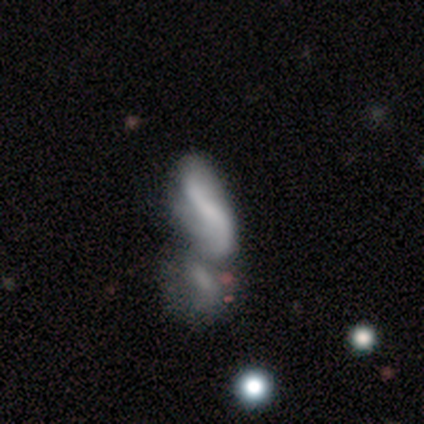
Smooth or featured? 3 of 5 (60%) said featured or disk. Edge-on disk? 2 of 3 (67%) said no. Bar? 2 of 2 (100%) said strong. Spiral arms? 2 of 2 (100%) said yes. Spiral winding? 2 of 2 (100%) said loose. Spiral arm count? 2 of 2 (100%) said 2. Bulge size? 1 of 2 (50%, tied with small) said moderate. Merging? 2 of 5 (40%, tied with major disturbance) said minor disturbance.